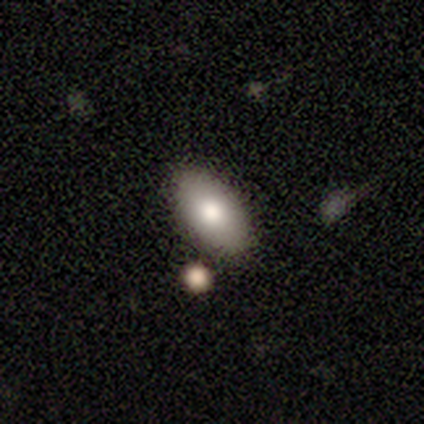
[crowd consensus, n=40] Smooth or featured: smooth — 75% (featured or disk — 25%)
How rounded: in between — 100%
Merging: none — 88% (merger — 8%)